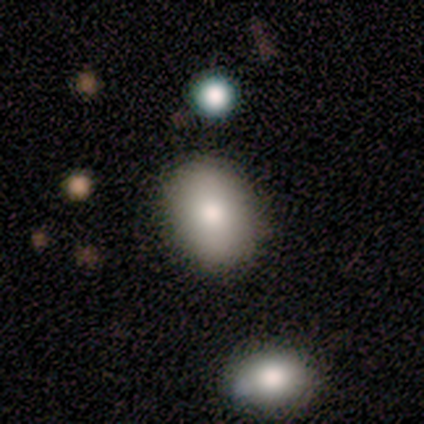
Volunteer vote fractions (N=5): Smooth or featured? 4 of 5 (80%) said smooth. How rounded? 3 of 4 (75%) said in between. Merging? 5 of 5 (100%) said none.